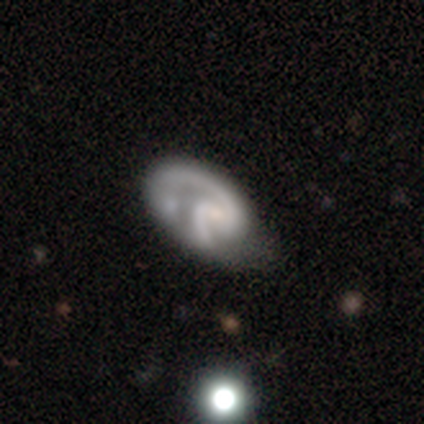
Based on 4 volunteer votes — This is likely a featured or disk galaxy (75%). It is clearly not viewed edge-on (100%). Bar: marginally strong (33%, tied with weak and no). Spiral arm pattern: likely yes (67%). Spiral arm count: clearly 2 (100%). Spiral winding: clearly tight (100%). Central bulge: clearly small (100%). Merging: marginally none (25%, tied with minor disturbance, major disturbance and merger).